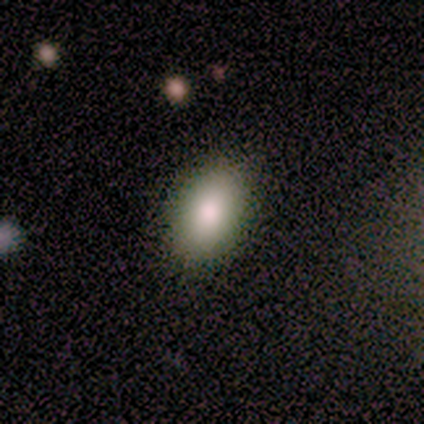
This is likely a smooth galaxy (60%). How rounded: clearly in between (100%). Merging: clearly none (100%).